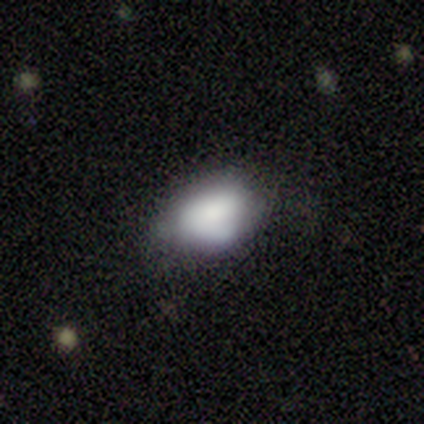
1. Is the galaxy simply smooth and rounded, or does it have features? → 86% smooth, 14% featured or disk, 0% star or artifact.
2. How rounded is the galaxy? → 67% in between, 33% round, 0% cigar-shaped.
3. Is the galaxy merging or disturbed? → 57% minor disturbance, 43% none, 0% major disturbance, 0% merger.